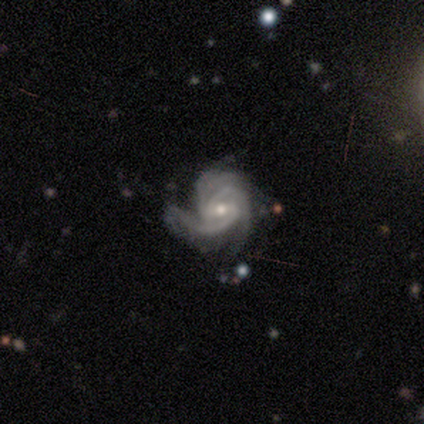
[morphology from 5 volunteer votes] Smooth or featured?
  - featured or disk: 100% *
  - smooth: 0%
  - star or artifact: 0%
Edge-on disk?
  - no: 100% *
  - yes: 0%
Bar?
  - weak: 80% *
  - no: 20%
  - strong: 0%
Spiral arms?
  - yes: 100% *
  - no: 0%
Spiral winding?
  - tight: 40% * (tied)
  - medium: 40% * (tied)
  - loose: 20%
Spiral arm count?
  - 3: 80% *
  - more than 4: 20%
  - 1: 0%
  - 2: 0%
  - 4: 0%
  - can't tell: 0%
Bulge size?
  - small: 60% *
  - moderate: 40%
  - dominant: 0%
  - large: 0%
  - none: 0%
Merging?
  - minor disturbance: 60% *
  - none: 40%
  - major disturbance: 0%
  - merger: 0%